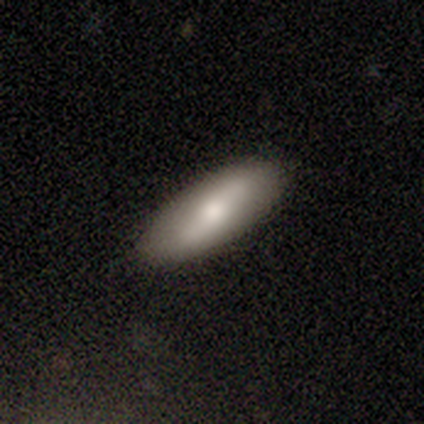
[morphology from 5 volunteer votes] Smooth or featured: smooth — 60% (featured or disk — 20%)
How rounded: in between — 67% (cigar-shaped — 33%)
Merging: none — 100%